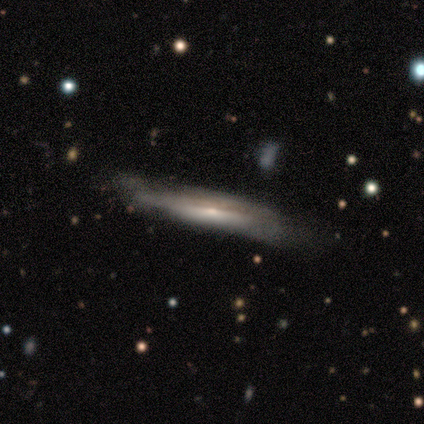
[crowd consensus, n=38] smooth-or-featured: featured or disk: 71% | smooth: 26% | star or artifact: 3%
  disk-edge-on: yes: 93% | no: 7%
    edge-on-bulge: rounded: 40% | none: 32% | boxy: 28%
  merging: none: 57% | minor disturbance: 30% | major disturbance: 14% | merger: 0%